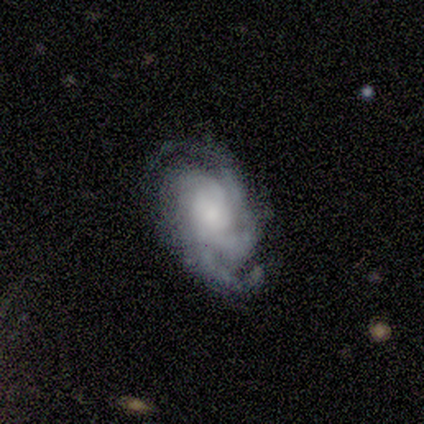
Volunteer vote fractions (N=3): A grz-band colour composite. It shows a featured or disk galaxy (100%) with no bar (100%), 3 (33%, tied with 4 and more than 4) tight (67%) spiral arms (100%) and a moderate central bulge (67%). Merging: none (67%).